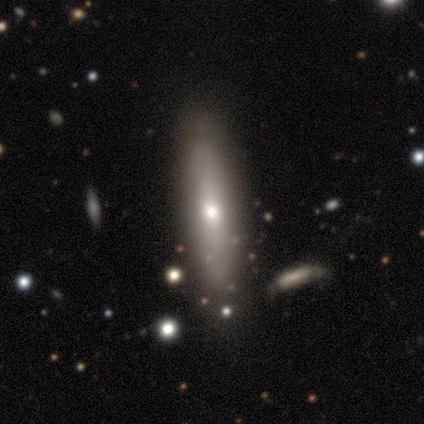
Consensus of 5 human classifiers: A smooth galaxy with no disk features (40%, tied with featured or disk) that is cigar-shaped (100%). Merging: none (100%).